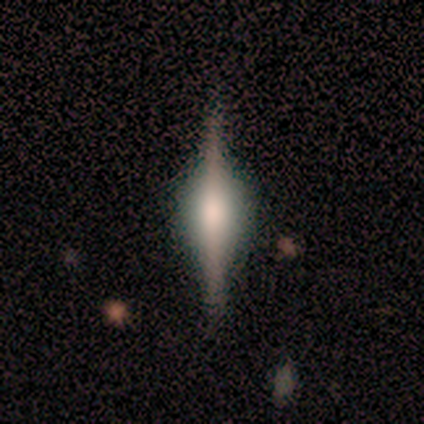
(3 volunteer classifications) A featured or disk galaxy (100%) viewed edge-on (100%) with a rounded central bulge (100%). Merging: none (100%).